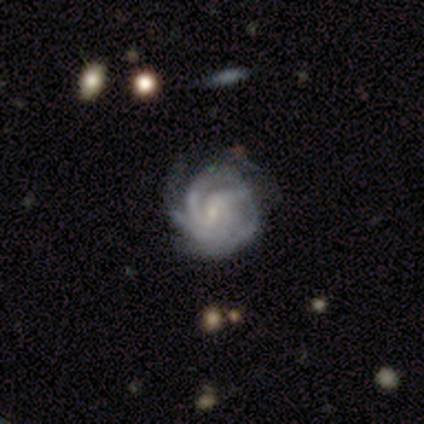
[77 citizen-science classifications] Smooth or featured? 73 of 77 (95%) said featured or disk. Edge-on disk? 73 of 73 (100%) said no. Bar? 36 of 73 (49%) said weak. Spiral arms? 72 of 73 (99%) said yes. Spiral winding? 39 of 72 (54%) said tight. Spiral arm count? 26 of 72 (36%) said 3. Bulge size? 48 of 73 (66%) said small. Merging? 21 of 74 (28%) said none.